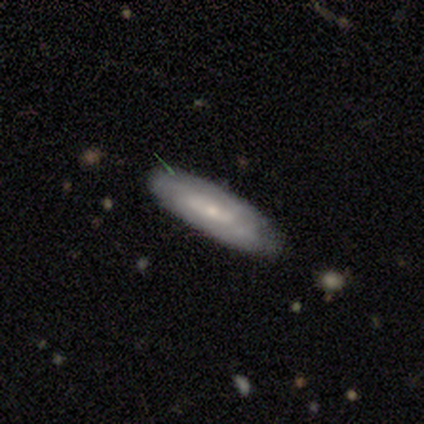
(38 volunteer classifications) A featured or disk galaxy (58%) with no bar (50%), tight (55%) spiral arms (61%) and a small central bulge (67%). Merging: none (71%).